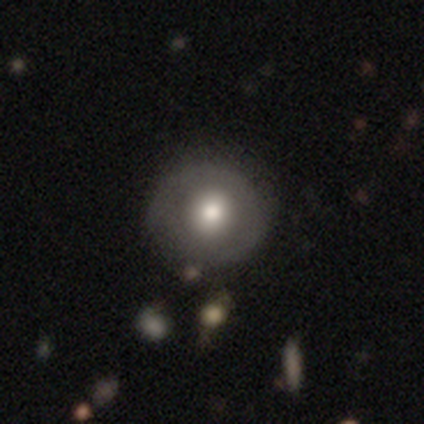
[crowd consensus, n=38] Q: Smooth or featured?
A: smooth (55%); runner-up: featured or disk (39%)
Q: How rounded?
A: round (100%)
Q: Merging?
A: none (53%); runner-up: minor disturbance (6%)